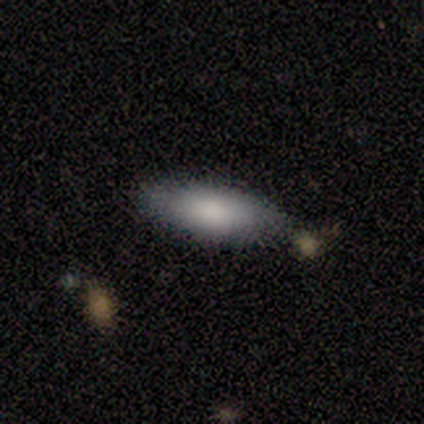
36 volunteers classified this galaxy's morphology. smooth_or_featured: smooth (p=0.78) [alt: featured or disk p=0.14]
how_rounded: in between (p=0.75) [alt: cigar-shaped p=0.21]
merging: none (p=0.82) [alt: minor disturbance p=0.12]